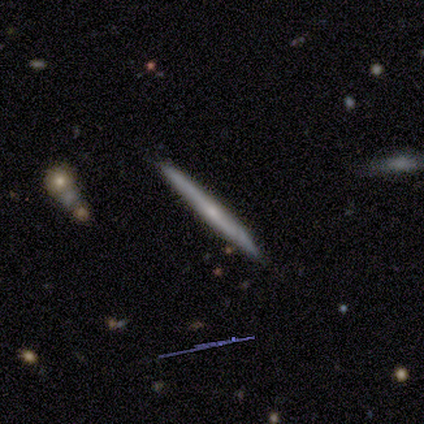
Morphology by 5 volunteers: smooth_or_featured: featured or disk (p=0.80) [alt: smooth p=0.20]
disk_edge_on: yes (p=1.00)
edge_on_bulge: rounded (p=0.75) [alt: none p=0.25]
merging: none (p=0.80) [alt: merger p=0.20]